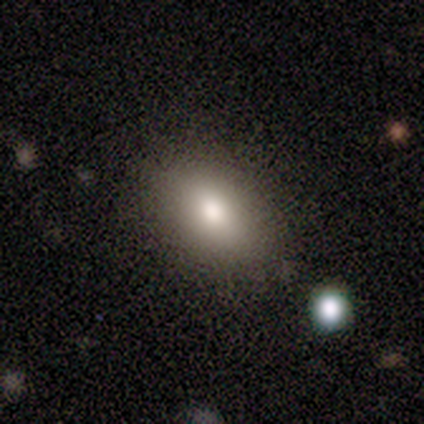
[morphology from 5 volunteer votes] Volunteers were most divided on "smooth or featured": smooth: 80%, star or artifact: 20%, featured or disk: 0%. More confident: how rounded — in between (100%); merging — none (100%).